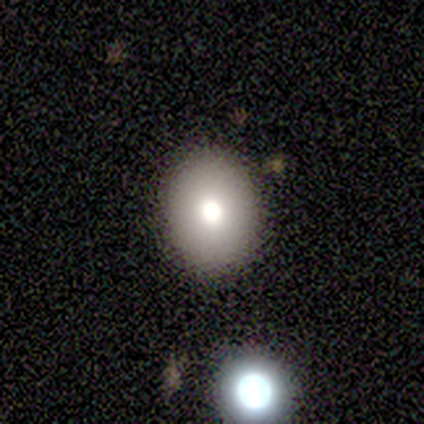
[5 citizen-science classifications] Smooth or featured: smooth — 40% (tied with featured or disk — 40%)
How rounded: round — 50% (tied with in between — 50%)
Merging: none — 100%